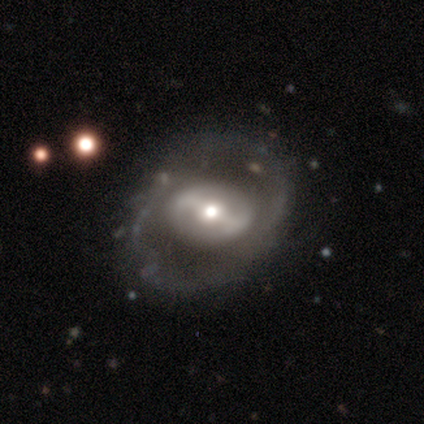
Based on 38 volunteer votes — A featured or disk galaxy (76%) with a strong bar (48%), no spiral arms (59%) and a moderate central bulge (59%). Merging: none (78%).